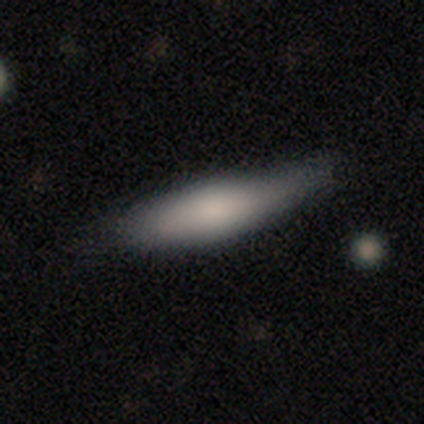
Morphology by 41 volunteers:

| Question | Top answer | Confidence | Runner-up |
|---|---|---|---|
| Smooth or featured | smooth | 78% | featured or disk (12%) |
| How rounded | cigar-shaped | 56% | in between (44%) |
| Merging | none | 59% | minor disturbance (27%) |